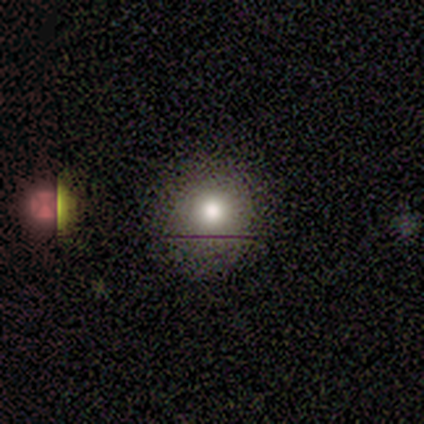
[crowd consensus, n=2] Morphology: type=smooth (100%); roundness=round (100%); merging=none (50%, tied with minor disturbance).